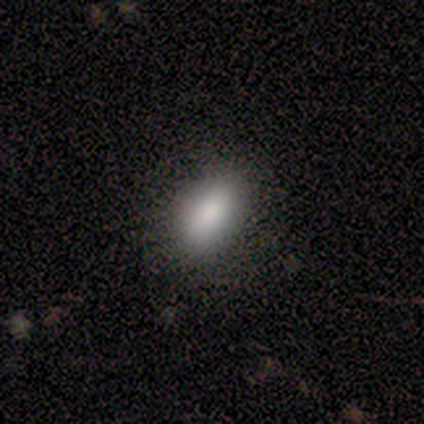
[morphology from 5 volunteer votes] type=smooth (100%); roundness=in between (60%); merging=none (100%).